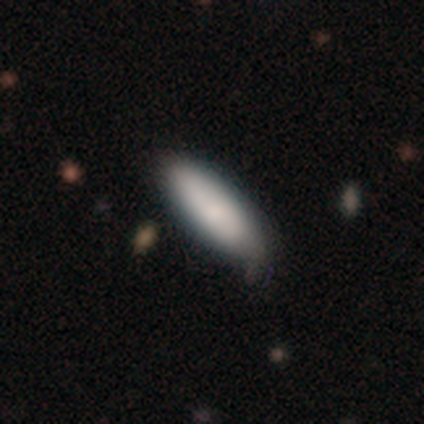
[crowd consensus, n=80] smooth-or-featured: smooth: 89% | featured or disk: 9% | star or artifact: 2%
  how-rounded: in between: 70% | cigar-shaped: 28% | round: 1%
  merging: none: 40% | minor disturbance: 9% | major disturbance: 1% | merger: 1%